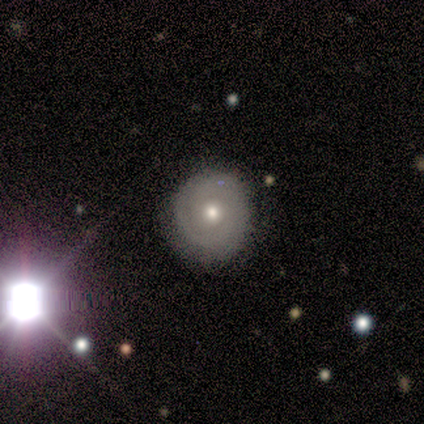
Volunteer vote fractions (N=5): Volunteers were most divided on "smooth or featured" (2-way tie): smooth: 40%, featured or disk: 40%, star or artifact: 20%; "how rounded" (2-way tie): round: 50%, in between: 50%, cigar-shaped: 0%. More confident: merging — none (75%).